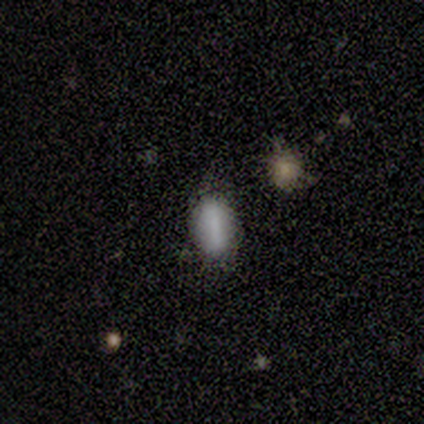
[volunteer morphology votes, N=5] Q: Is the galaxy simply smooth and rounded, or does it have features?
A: smooth — 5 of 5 (100%).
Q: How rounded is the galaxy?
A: in between — 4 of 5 (80%).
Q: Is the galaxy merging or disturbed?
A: none — 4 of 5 (80%).